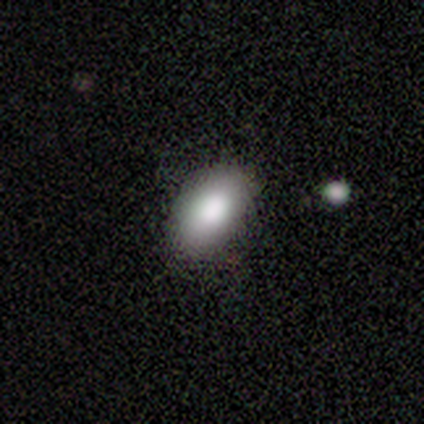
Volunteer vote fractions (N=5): Morphology: type=smooth (100%); roundness=in between (100%); merging=none (80%).